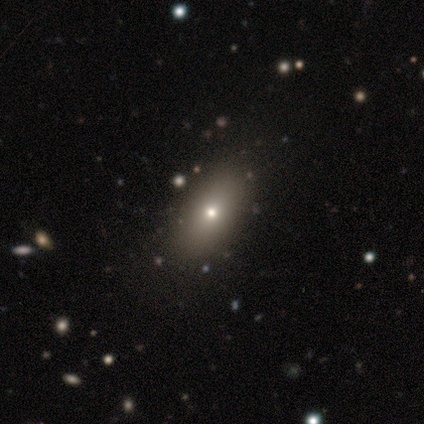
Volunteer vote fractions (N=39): smooth 74%, featured or disk 13%, star or artifact 13%. Down the decision tree: how rounded — in between (93%); merging — none (74%).